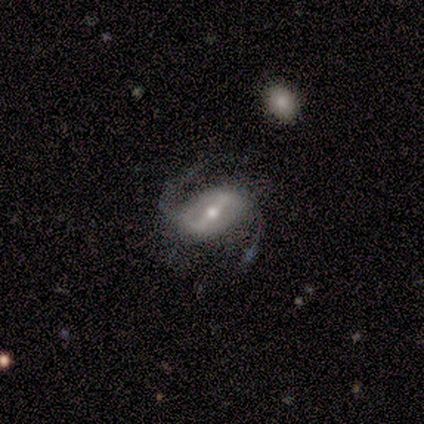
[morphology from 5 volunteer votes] Volunteers were most divided on "merging": none: 60%, major disturbance: 20%, merger: 20%, minor disturbance: 0%. More confident: edge-on disk — no (100%); spiral winding — loose (100%); spiral arm count — 2 (100%); smooth or featured — featured or disk (80%); bar — strong (75%); spiral arms — yes (75%); bulge size — moderate (75%).